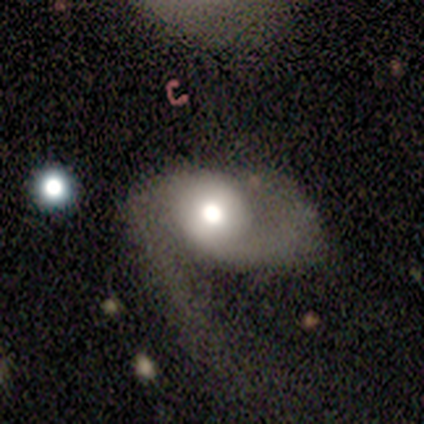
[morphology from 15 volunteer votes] This is likely a featured or disk galaxy (67%). It is clearly not viewed edge-on (90%). Bar: clearly no (89%). Spiral arm pattern: possibly yes (56%). Spiral arm count: likely 2 (60%). Spiral winding: likely loose (60%). Central bulge: possibly moderate (56%). Merging: likely major disturbance (67%).